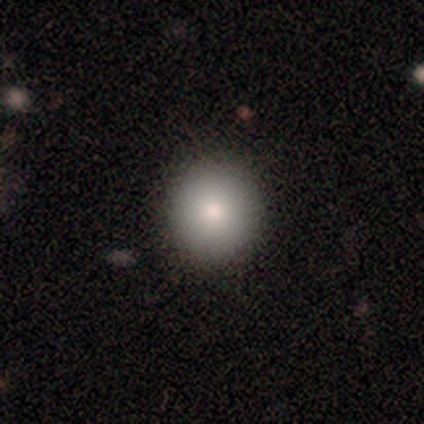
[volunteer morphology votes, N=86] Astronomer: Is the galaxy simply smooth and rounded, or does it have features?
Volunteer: smooth — 83%.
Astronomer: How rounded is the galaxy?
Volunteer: round — 96%.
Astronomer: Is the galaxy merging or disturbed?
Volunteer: none — 91%.